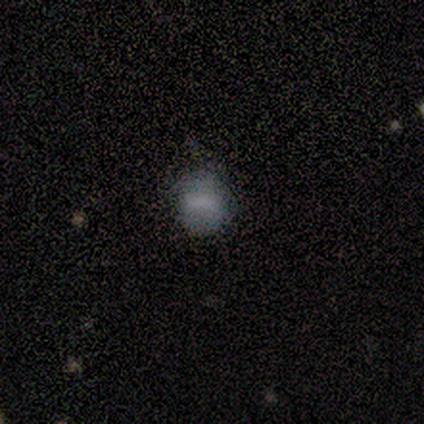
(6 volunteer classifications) Overall: smooth (50%, tied with featured or disk). How rounded: in between (67%; round 33%). Merging: none (67%).